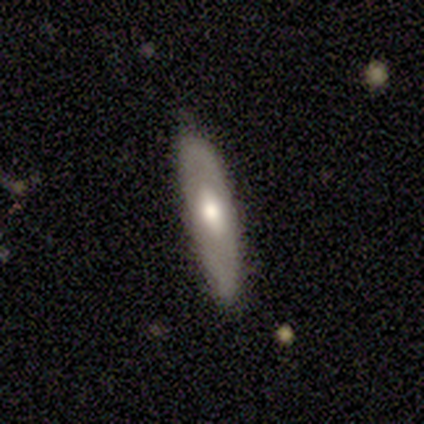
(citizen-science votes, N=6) A smooth galaxy with no disk features (50%, tied with featured or disk) that is cigar-shaped (100%).

Vote fractions:
- Smooth or featured? smooth: 50% (tied) / featured or disk: 50% (tied) / star or artifact: 0%
- How rounded? cigar-shaped: 100% / round: 0% / in between: 0%
- Merging? none: 100% / minor disturbance: 0% / major disturbance: 0% / merger: 0%